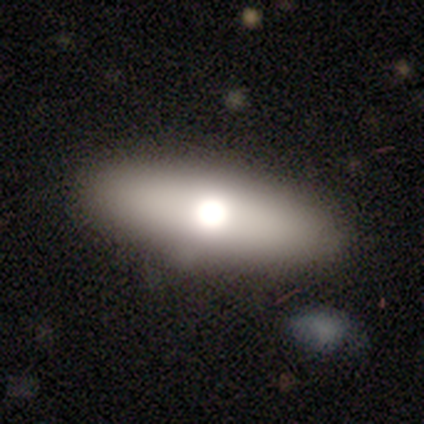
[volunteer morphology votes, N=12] Overall: smooth (67%; featured or disk 33%). How rounded: in between (88%). Merging: none (83%).